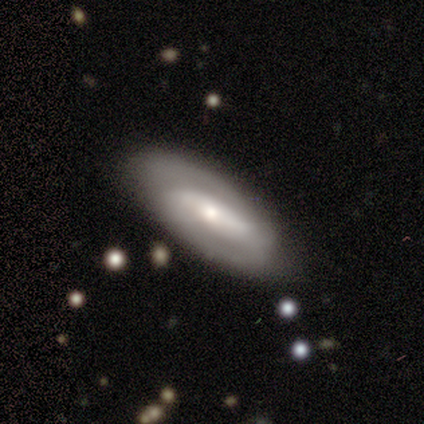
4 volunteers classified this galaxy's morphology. This appears to be a featured or disk galaxy (75%) with a strong bar (100%), 2 (100%) medium (50%, tied with loose) spiral arms (67%) and a moderate central bulge (33%, tied with small and none). Merging: none (75%).